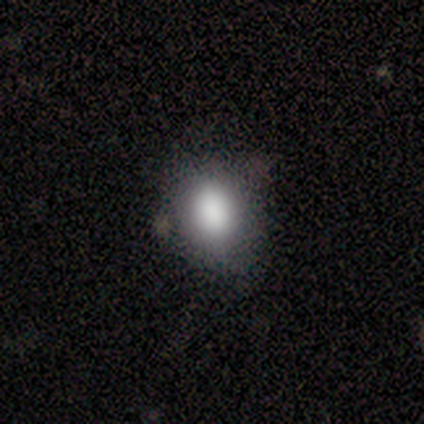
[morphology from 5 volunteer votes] This is clearly a smooth galaxy (100%). How rounded: clearly in between (80%). Merging: clearly none (80%).